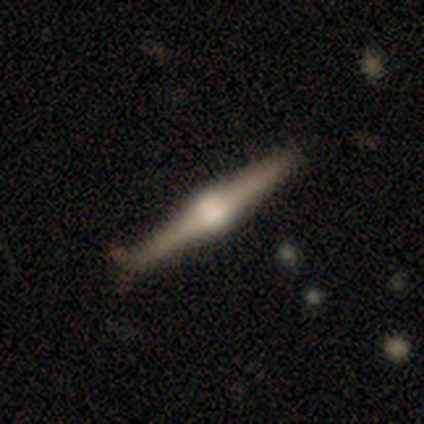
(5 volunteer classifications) A featured or disk galaxy (60%) viewed edge-on (100%) with a rounded central bulge (100%). Merging: none (100%).